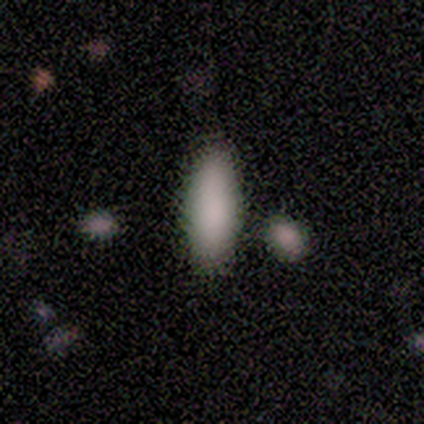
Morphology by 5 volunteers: This is clearly a smooth galaxy (100%). How rounded: likely in between (60%). Merging: clearly none (80%).